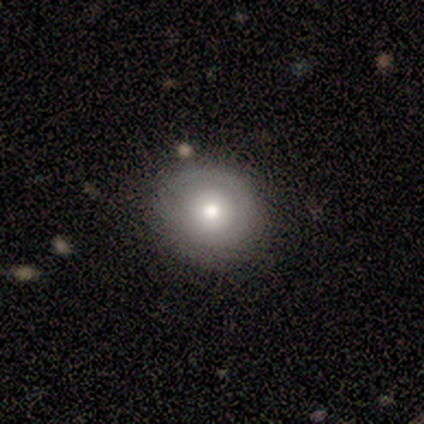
A smooth galaxy with no disk features (50%, tied with featured or disk) that is round (89%). Merging: none (83%).